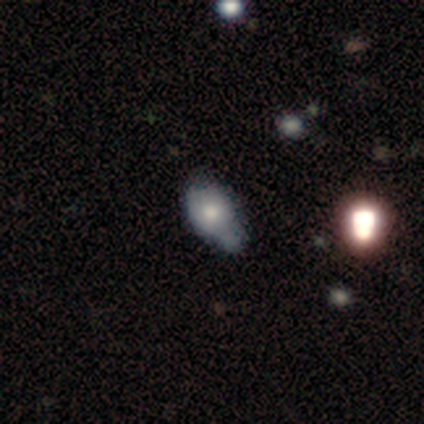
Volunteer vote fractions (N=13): smooth-or-featured: featured or disk: 62% | smooth: 38% | star or artifact: 0%
  disk-edge-on: no: 75% | yes: 25%
    bar: no: 100% | strong: 0% | weak: 0%
    has-spiral-arms: no: 83% | yes: 17%
    bulge-size: large: 50% | moderate: 33% | small: 17% | dominant: 0% | none: 0%
  merging: minor disturbance: 62% | none: 23% | major disturbance: 15% | merger: 0%